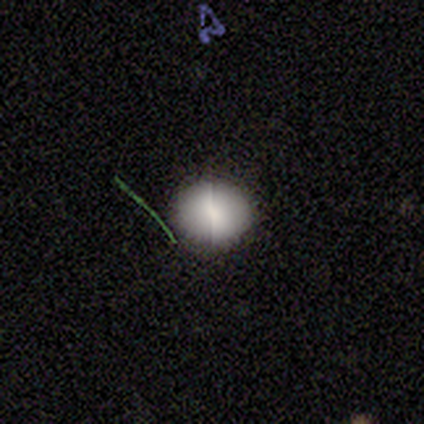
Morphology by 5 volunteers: smooth-or-featured: smooth: 80% | featured or disk: 20% | star or artifact: 0%
  how-rounded: round: 100% | in between: 0% | cigar-shaped: 0%
  merging: none: 100% | minor disturbance: 0% | major disturbance: 0% | merger: 0%